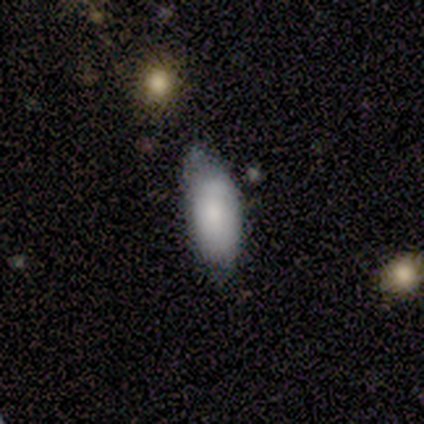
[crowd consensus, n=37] Overall: smooth (78%). How rounded: in between (86%). Merging: none (50%; minor disturbance 39%).